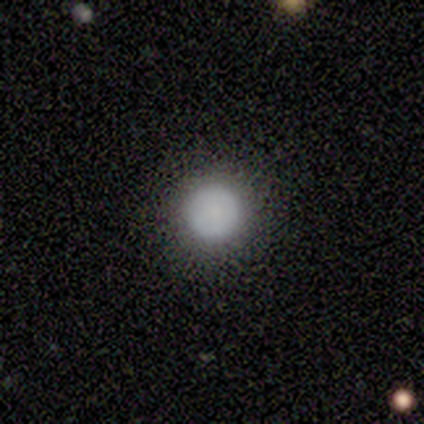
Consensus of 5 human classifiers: Smooth or featured: smooth — 80% (featured or disk — 20%)
How rounded: round — 100%
Merging: none — 100%